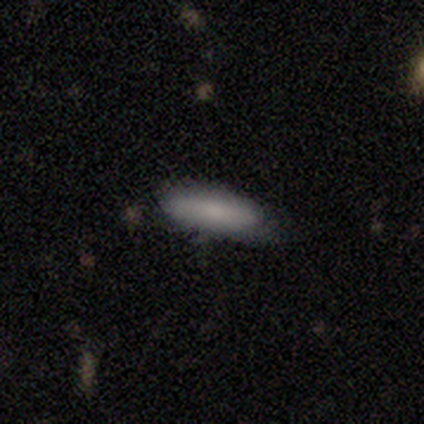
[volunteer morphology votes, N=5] Overall: smooth (80%). How rounded: cigar-shaped (75%). Merging: none (60%; minor disturbance 40%).